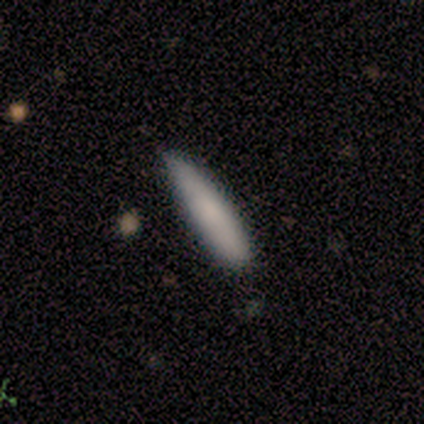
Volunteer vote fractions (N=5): smooth 100%, featured or disk 0%, star or artifact 0%. Down the decision tree: how rounded — cigar-shaped (100%); merging — minor disturbance (80%).